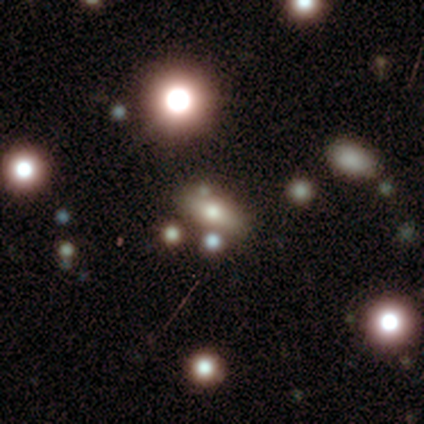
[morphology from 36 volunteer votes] Smooth or featured: smooth — 50% (star or artifact — 39%)
How rounded: in between — 50% (round — 28%)
Merging: none — 77% (minor disturbance — 14%)